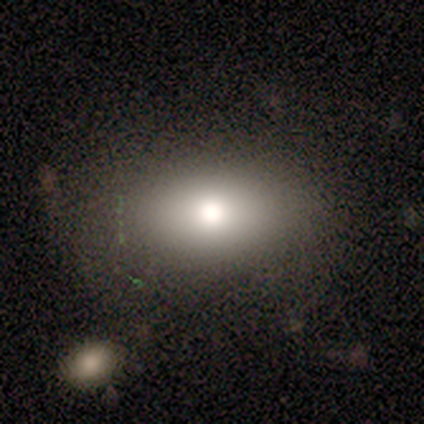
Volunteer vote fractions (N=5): A smooth galaxy with no disk features (80%) that is in between round and cigar-shaped (100%).

Vote fractions:
- Smooth or featured? smooth: 80% / star or artifact: 20% / featured or disk: 0%
- How rounded? in between: 100% / round: 0% / cigar-shaped: 0%
- Merging? none: 75% / major disturbance: 25% / minor disturbance: 0% / merger: 0%